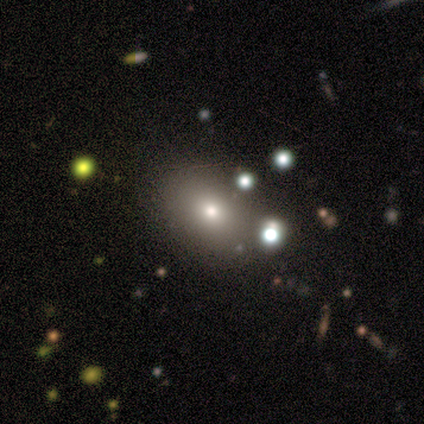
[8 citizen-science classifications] Smooth or featured? 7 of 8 (88%) said smooth. How rounded? 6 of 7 (86%) said in between. Merging? 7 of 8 (88%) said none.